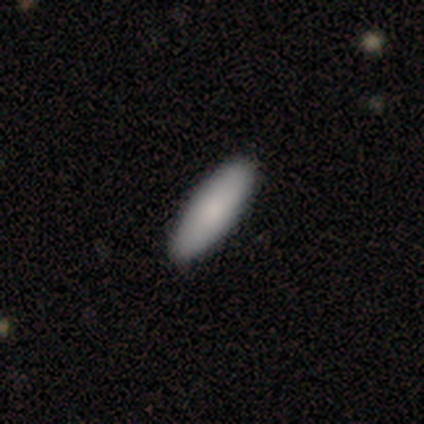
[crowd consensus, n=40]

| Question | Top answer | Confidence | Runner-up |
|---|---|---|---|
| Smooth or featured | smooth | 85% | featured or disk (15%) |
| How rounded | in between | 56% | cigar-shaped (44%) |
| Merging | none | 75% | minor disturbance (5%) |